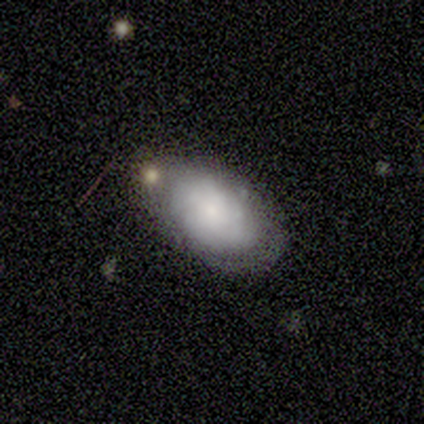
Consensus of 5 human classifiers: A smooth galaxy with no disk features (60%) that is in between round and cigar-shaped (100%). Merging: none (40%, tied with minor disturbance).